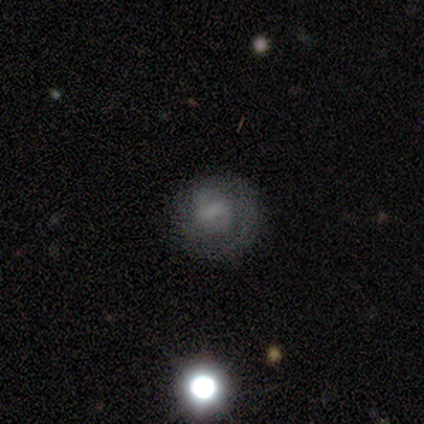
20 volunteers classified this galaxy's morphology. A featured or disk galaxy (55%) with a weak bar (45%), 2 (50%) tight (50%) spiral arms (73%) and no central bulge (73%). Merging: none (87%).